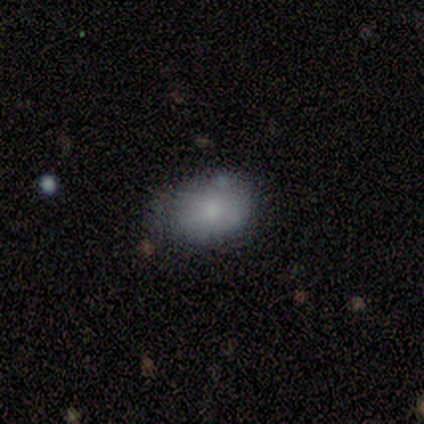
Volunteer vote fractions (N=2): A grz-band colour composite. It shows a smooth galaxy with no disk features (50%, tied with star or artifact) that is in between round and cigar-shaped (100%). Merging: none (100%).